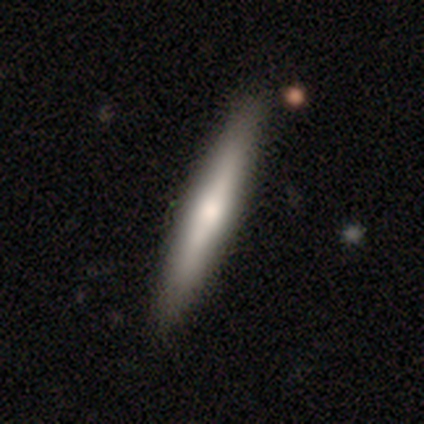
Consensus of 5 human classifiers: Smooth or featured?
  - featured or disk: 60% *
  - smooth: 40%
  - star or artifact: 0%
Edge-on disk?
  - yes: 100% *
  - no: 0%
Edge-on bulge?
  - none: 67% *
  - rounded: 33%
  - boxy: 0%
Merging?
  - none: 80% *
  - minor disturbance: 20%
  - major disturbance: 0%
  - merger: 0%